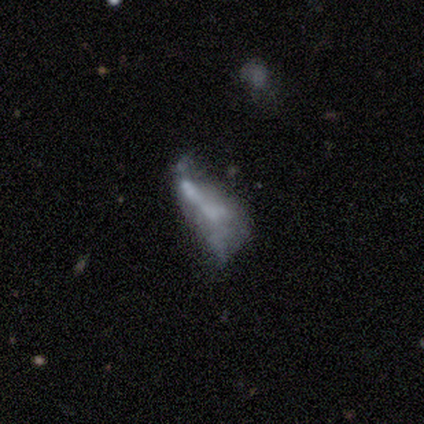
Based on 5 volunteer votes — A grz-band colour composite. It shows a featured or disk galaxy (60%) with no bar (100%), no spiral arms (100%) and no central bulge (67%). Merging: major disturbance (50%).